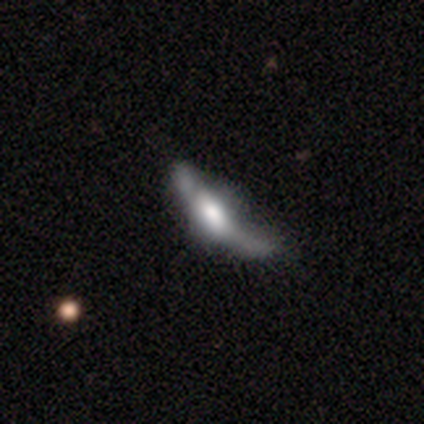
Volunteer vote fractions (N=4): Smooth or featured? 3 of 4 (75%) said featured or disk. Edge-on disk? 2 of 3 (67%) said yes. Edge-on bulge? 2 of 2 (100%) said boxy. Merging? 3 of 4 (75%) said major disturbance.